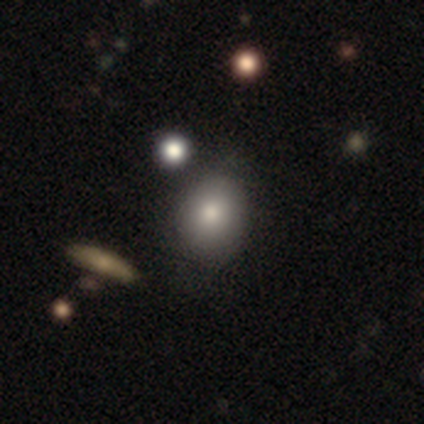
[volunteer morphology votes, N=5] Q: Smooth or featured?
A: smooth (80%); runner-up: featured or disk (20%)
Q: How rounded?
A: round (75%); runner-up: in between (25%)
Q: Merging?
A: none (40%); tied with: merger (40%)